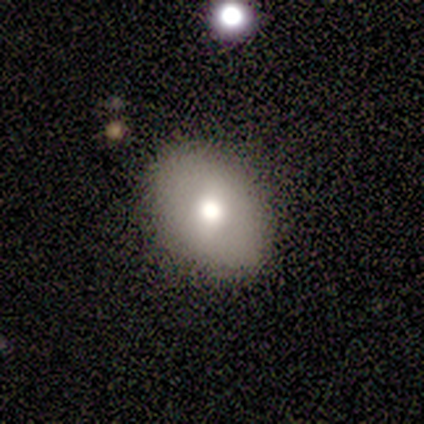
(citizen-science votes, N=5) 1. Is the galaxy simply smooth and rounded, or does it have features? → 100% smooth, 0% featured or disk, 0% star or artifact.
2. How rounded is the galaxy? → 60% round, 40% in between, 0% cigar-shaped.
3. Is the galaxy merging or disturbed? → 60% none, 40% major disturbance, 0% minor disturbance, 0% merger.